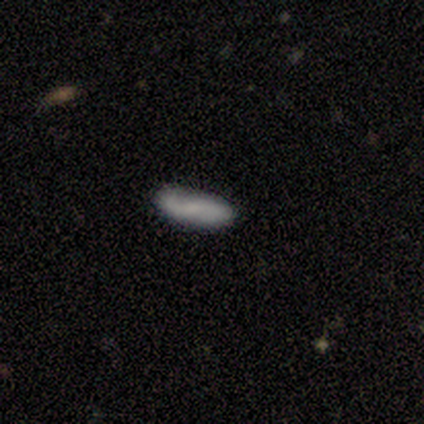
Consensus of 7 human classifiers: Morphology: type=smooth (43%, tied with featured or disk); roundness=cigar-shaped (100%); merging=minor disturbance (50%).